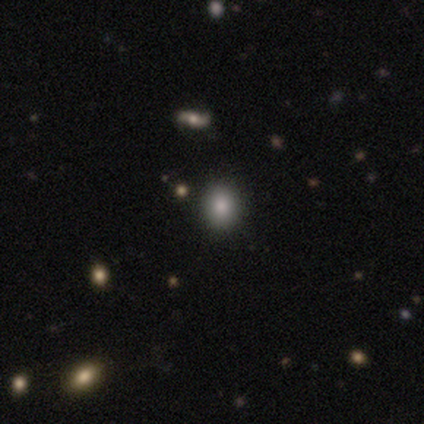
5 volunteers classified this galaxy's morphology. A smooth galaxy with no disk features (80%) that is round (100%). Merging: none (100%).